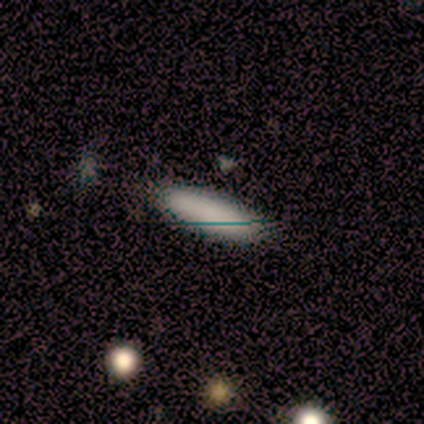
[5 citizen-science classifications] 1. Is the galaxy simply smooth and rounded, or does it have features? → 100% smooth, 0% featured or disk, 0% star or artifact.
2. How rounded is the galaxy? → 100% in between, 0% round, 0% cigar-shaped.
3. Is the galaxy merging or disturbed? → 80% none, 20% minor disturbance, 0% major disturbance, 0% merger.